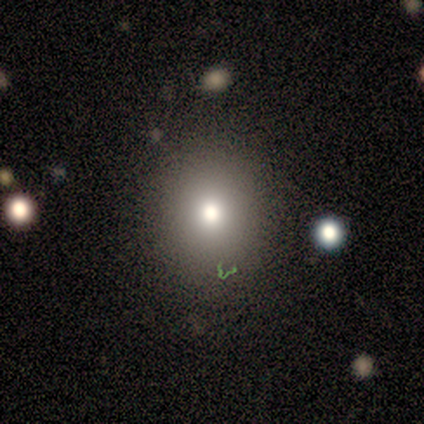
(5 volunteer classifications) Smooth or featured?
  - smooth: 100% *
  - featured or disk: 0%
  - star or artifact: 0%
How rounded?
  - round: 80% *
  - in between: 20%
  - cigar-shaped: 0%
Merging?
  - none: 80% *
  - major disturbance: 20%
  - minor disturbance: 0%
  - merger: 0%